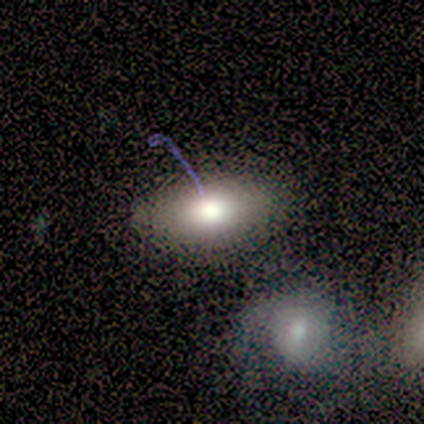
A smooth galaxy with no disk features (60%) that is in between round and cigar-shaped (100%). Merging: none (50%).